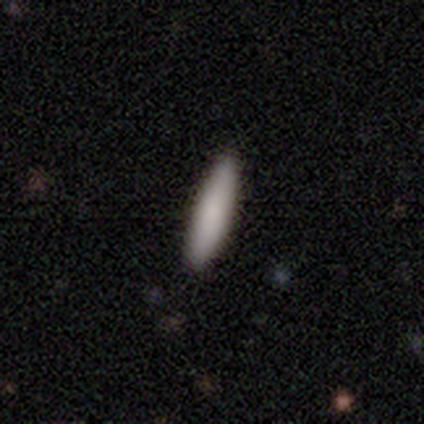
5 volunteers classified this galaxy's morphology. Smooth or featured? smooth (80%)
How rounded? in between (50%, tied with cigar-shaped)
Merging? none (100%)